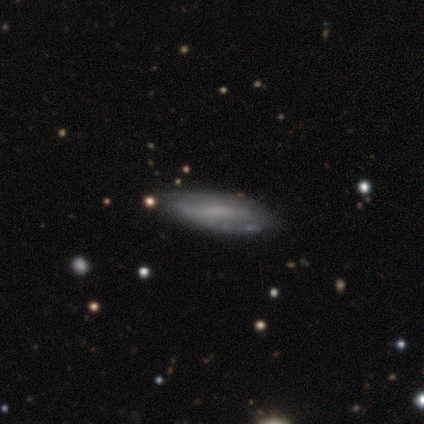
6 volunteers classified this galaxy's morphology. This is possibly a smooth galaxy (50%, tied with featured or disk). How rounded: clearly cigar-shaped (100%). Merging: likely none (67%).